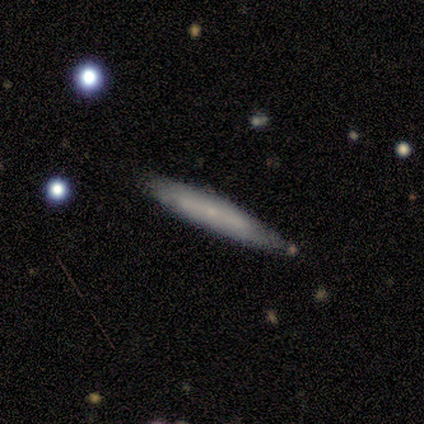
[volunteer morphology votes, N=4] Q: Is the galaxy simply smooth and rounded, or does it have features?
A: featured or disk — 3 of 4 (75%).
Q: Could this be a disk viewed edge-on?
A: yes — 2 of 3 (67%).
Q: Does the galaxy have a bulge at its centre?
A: none — 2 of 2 (100%).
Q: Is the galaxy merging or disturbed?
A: none — 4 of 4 (100%).